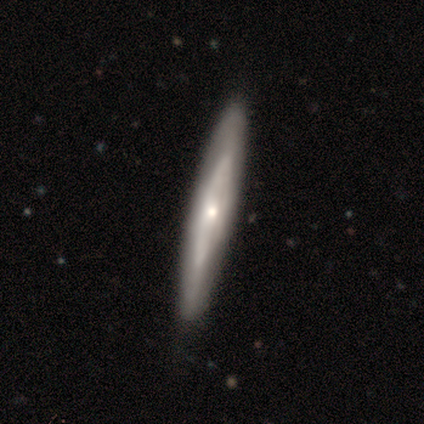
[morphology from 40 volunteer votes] type=featured or disk (80%); edge-on=yes (62%); edge-on bulge=rounded (60%); merging=none (67%).